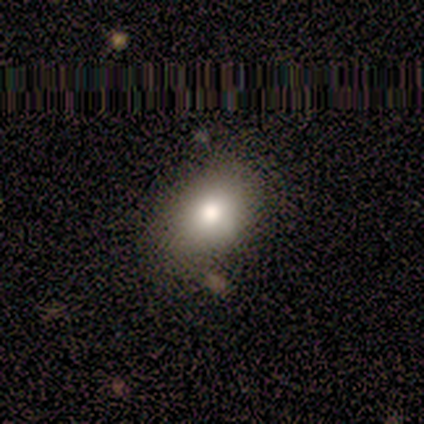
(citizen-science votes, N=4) Smooth or featured: smooth — 75% (featured or disk — 25%)
How rounded: in between — 100%
Merging: none — 75% (merger — 25%)